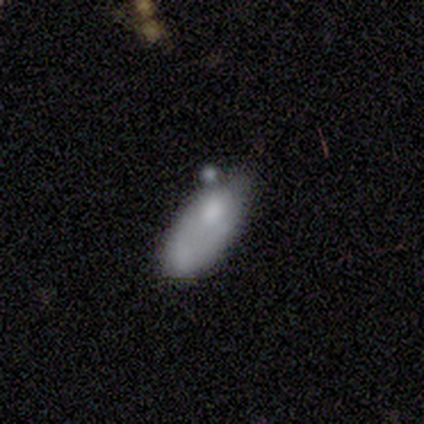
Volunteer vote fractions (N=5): Smooth or featured? smooth (80%)
How rounded? in between (75%)
Merging? none (60%)